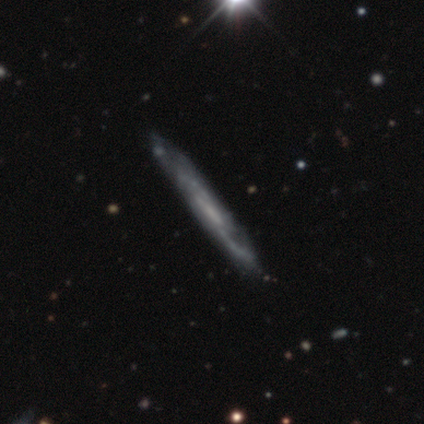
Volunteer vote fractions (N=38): Volunteers were most divided on "edge-on disk": yes: 70%, no: 30%. More confident: edge-on bulge — none (87%); smooth or featured — featured or disk (87%); merging — none (55%).